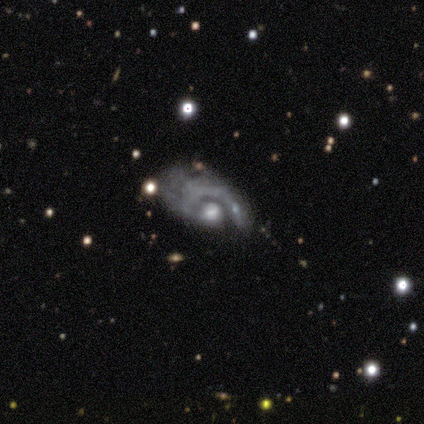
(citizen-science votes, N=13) smooth_or_featured: featured or disk (p=0.92) [alt: star or artifact p=0.08]
disk_edge_on: no (p=1.00)
bar: no (p=0.67) [alt: weak p=0.25]
has_spiral_arms: yes (p=0.83) [alt: no p=0.17]
spiral_winding: tight (p=0.50) [alt: medium p=0.30]
spiral_arm_count: 1 (p=1.00)
bulge_size: moderate (p=0.75) [alt: large p=0.17]
merging: major disturbance (p=0.50) [alt: none p=0.25]